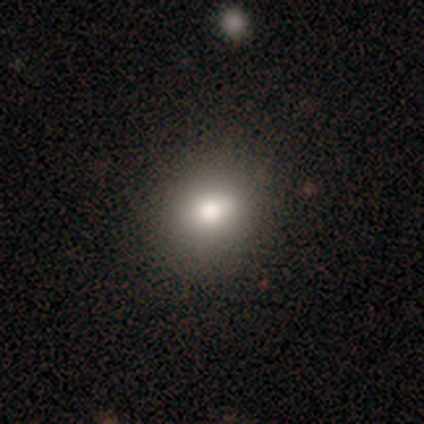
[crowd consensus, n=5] This appears to be a smooth galaxy with no disk features (100%) that is round (100%). Merging: none (60%).